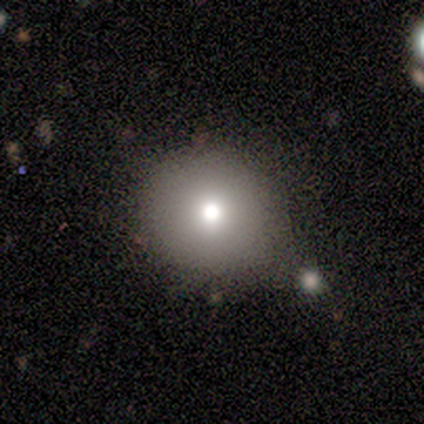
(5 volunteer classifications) smooth 60%, star or artifact 40%, featured or disk 0%. Down the decision tree: how rounded — round (100%); merging — none (67%).